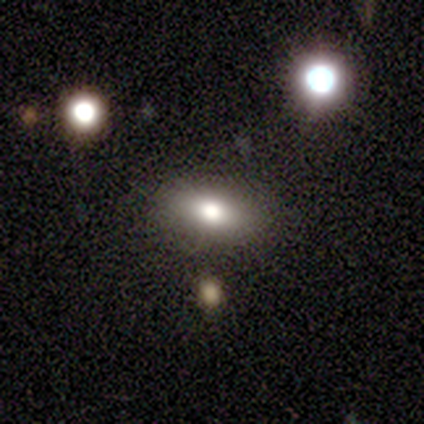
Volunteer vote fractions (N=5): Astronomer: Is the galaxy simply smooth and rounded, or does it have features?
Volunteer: smooth — 100%.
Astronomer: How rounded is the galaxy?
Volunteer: in between — 100%.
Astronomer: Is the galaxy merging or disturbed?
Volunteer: none — 100%.